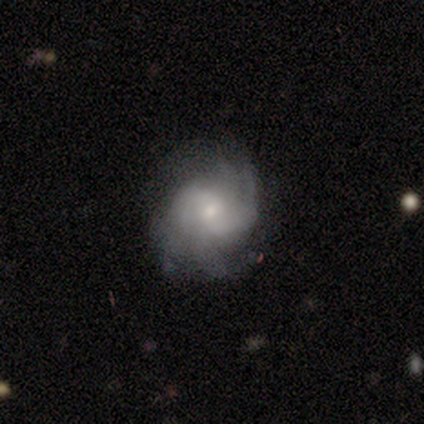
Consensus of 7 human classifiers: Smooth or featured?
  - featured or disk: 100% *
  - smooth: 0%
  - star or artifact: 0%
Edge-on disk?
  - no: 100% *
  - yes: 0%
Bar?
  - no: 57% *
  - weak: 29%
  - strong: 14%
Spiral arms?
  - yes: 100% *
  - no: 0%
Spiral winding?
  - medium: 71% *
  - tight: 14%
  - loose: 14%
Spiral arm count?
  - can't tell: 43% *
  - 2: 29%
  - 3: 14%
  - 4: 14%
  - 1: 0%
  - more than 4: 0%
Bulge size?
  - small: 71% *
  - moderate: 29%
  - dominant: 0%
  - large: 0%
  - none: 0%
Merging?
  - none: 71% *
  - minor disturbance: 14%
  - major disturbance: 14%
  - merger: 0%